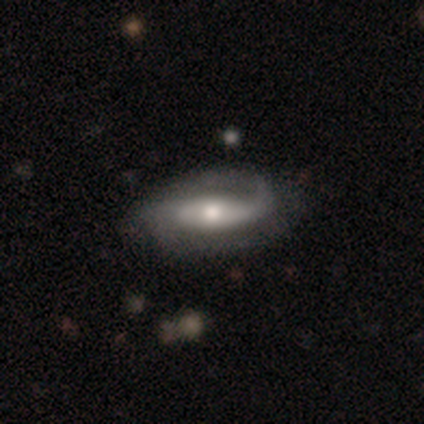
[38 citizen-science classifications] A featured or disk galaxy (74%) with a strong bar (48%), 2 (67%) medium (46%) spiral arms (96%) and a moderate central bulge (80%). Merging: none (69%).